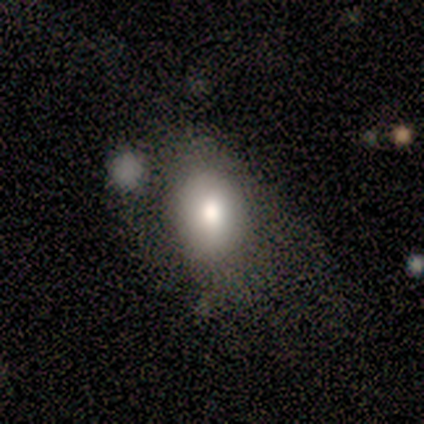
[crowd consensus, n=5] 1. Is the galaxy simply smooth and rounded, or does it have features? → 40% smooth (tied), 40% star or artifact (tied), 20% featured or disk.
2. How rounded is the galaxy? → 50% round (tied), 50% in between (tied), 0% cigar-shaped.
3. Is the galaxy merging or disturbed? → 67% none, 33% major disturbance, 0% minor disturbance, 0% merger.